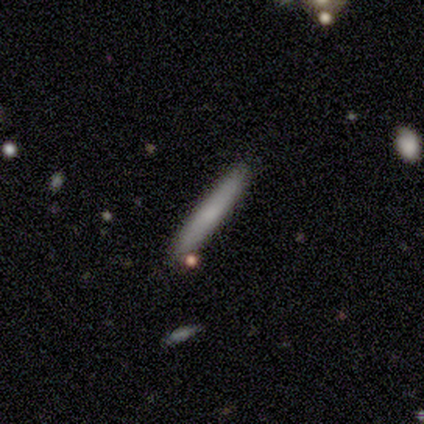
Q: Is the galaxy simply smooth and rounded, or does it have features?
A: smooth — 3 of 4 (75%).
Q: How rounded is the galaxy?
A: cigar-shaped — 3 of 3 (100%).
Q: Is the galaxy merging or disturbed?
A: none — 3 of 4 (75%).